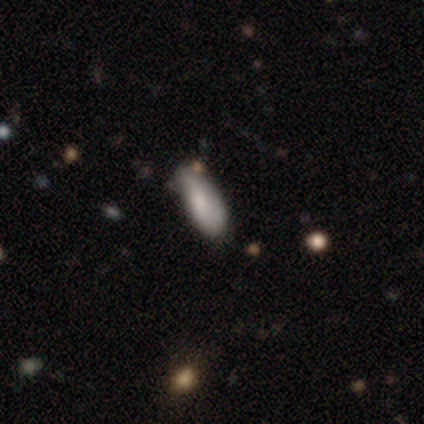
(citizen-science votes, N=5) This is likely a smooth galaxy (60%). How rounded: clearly in between (100%). Merging: possibly minor disturbance (50%).